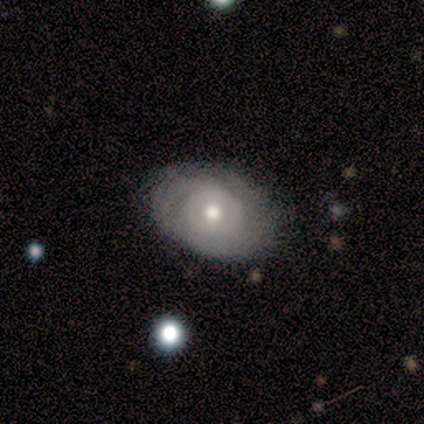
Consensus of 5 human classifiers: smooth-or-featured: featured or disk: 80% | smooth: 20% | star or artifact: 0%
  disk-edge-on: no: 100% | yes: 0%
    bar: no: 75% | weak: 25% | strong: 0%
    has-spiral-arms: yes: 50% (tied) | no: 50% (tied)
      spiral-winding: tight: 50% (tied) | loose: 50% (tied) | medium: 0%
      spiral-arm-count: 2: 50% (tied) | can't tell: 50% (tied) | 1: 0% | 3: 0% | 4: 0% | more than 4: 0%
    bulge-size: moderate: 50% | large: 25% | small: 25% | dominant: 0% | none: 0%
  merging: none: 80% | major disturbance: 20% | minor disturbance: 0% | merger: 0%